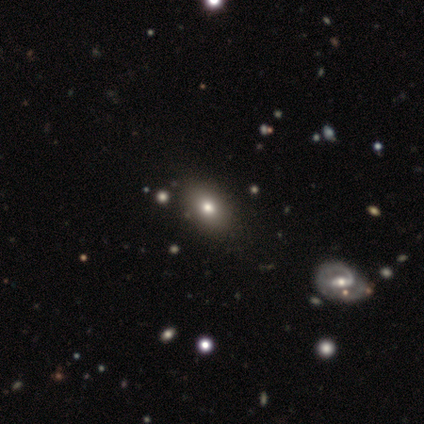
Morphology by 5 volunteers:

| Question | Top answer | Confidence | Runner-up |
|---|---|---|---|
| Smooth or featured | smooth | 80% | star or artifact (20%) |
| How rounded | in between | 75% | round (25%) |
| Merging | none | 100% | — |